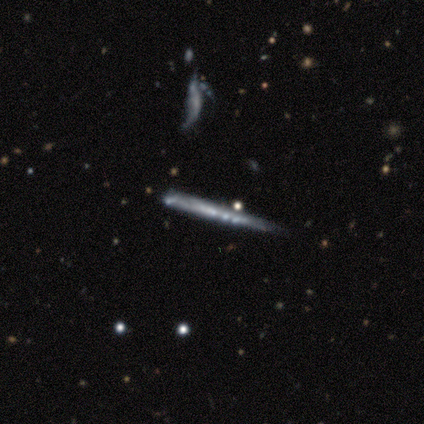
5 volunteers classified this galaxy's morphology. Overall: featured or disk (100%). Edge-on disk: yes (100%). Edge-on bulge: none (80%). Merging: minor disturbance (60%; none 20%).